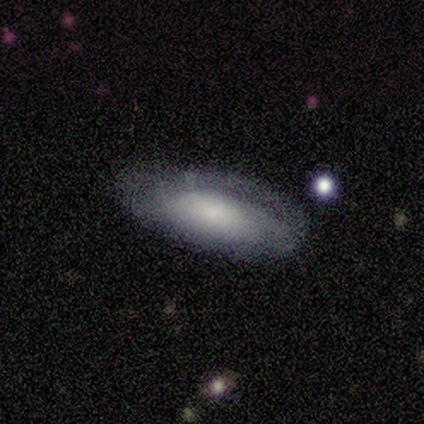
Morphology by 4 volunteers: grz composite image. It shows a smooth galaxy with no disk features (50%, tied with featured or disk) that is in between round and cigar-shaped (50%, tied with cigar-shaped). Merging: none (50%, tied with minor disturbance).